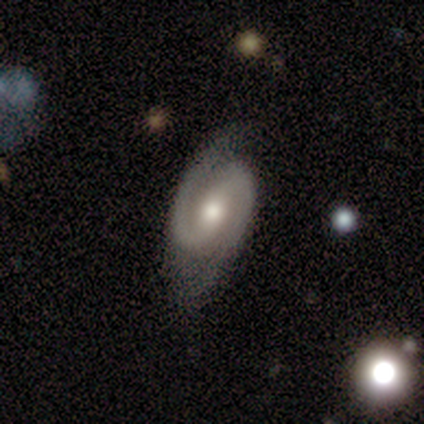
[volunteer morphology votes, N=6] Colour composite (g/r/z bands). It shows a featured or disk galaxy (100%) with a weak bar (50%), 2 (100%) medium (67%) spiral arms (100%) and a moderate central bulge (83%). Merging: none (83%).